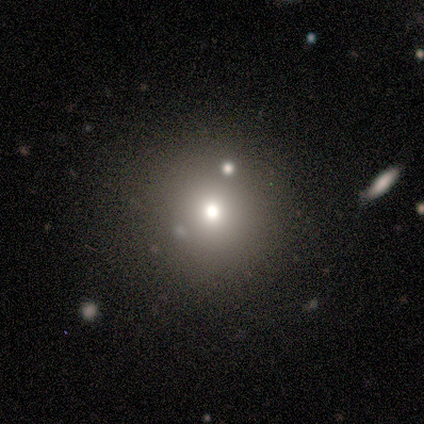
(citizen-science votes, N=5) smooth-or-featured: smooth: 40% (tied) | star or artifact: 40% (tied) | featured or disk: 20%
  how-rounded: round: 100% | in between: 0% | cigar-shaped: 0%
  merging: none: 100% | minor disturbance: 0% | major disturbance: 0% | merger: 0%